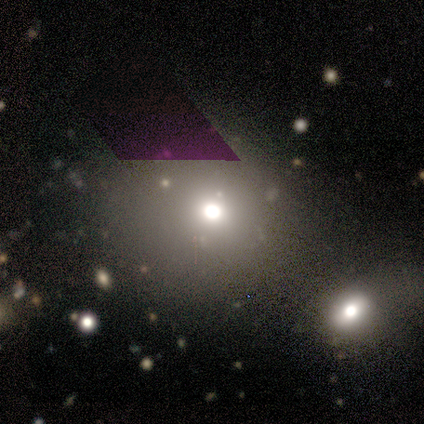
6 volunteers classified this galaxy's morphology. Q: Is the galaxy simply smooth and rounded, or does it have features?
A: smooth — 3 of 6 (50%).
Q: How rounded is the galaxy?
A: round — 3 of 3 (100%).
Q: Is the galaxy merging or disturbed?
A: merger — 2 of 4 (50%).